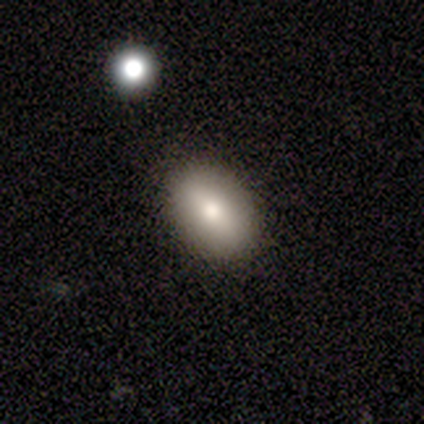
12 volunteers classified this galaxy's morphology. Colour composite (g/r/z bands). It shows a smooth galaxy with no disk features (75%) that is in between round and cigar-shaped (78%). Merging: none (83%).